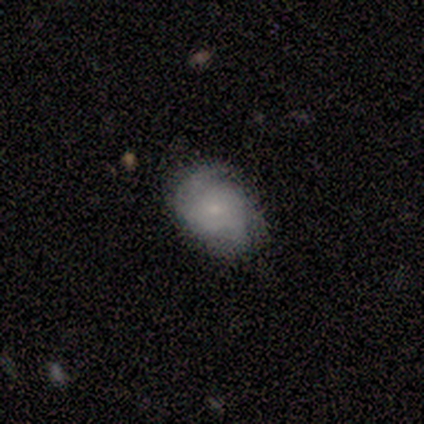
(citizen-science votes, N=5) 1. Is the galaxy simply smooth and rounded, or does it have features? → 60% smooth, 40% featured or disk, 0% star or artifact.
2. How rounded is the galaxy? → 67% in between, 33% round, 0% cigar-shaped.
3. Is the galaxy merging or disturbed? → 60% none, 40% minor disturbance, 0% major disturbance, 0% merger.